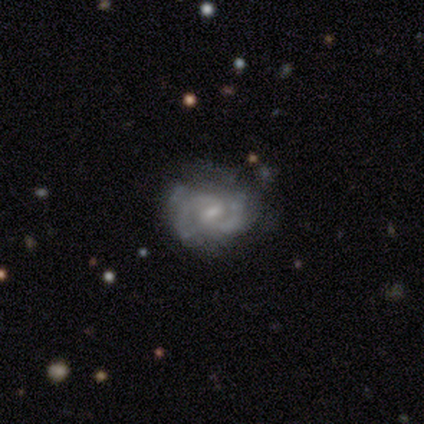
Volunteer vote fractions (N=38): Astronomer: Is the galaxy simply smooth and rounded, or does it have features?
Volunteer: featured or disk — 87%.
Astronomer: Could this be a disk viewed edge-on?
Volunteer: no — 100%.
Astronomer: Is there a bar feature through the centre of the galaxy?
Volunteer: weak — 73%.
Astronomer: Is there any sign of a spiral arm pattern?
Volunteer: yes — 88%.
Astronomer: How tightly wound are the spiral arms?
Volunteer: medium — 41% (runner-up: tight, 34%).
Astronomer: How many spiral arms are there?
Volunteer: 2 — 69%.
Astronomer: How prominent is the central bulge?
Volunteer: small — 58%.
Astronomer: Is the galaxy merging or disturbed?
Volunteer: none — 62%.